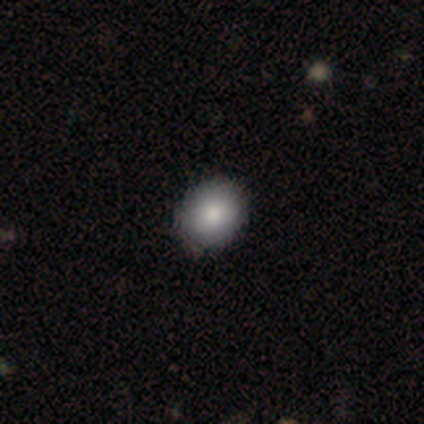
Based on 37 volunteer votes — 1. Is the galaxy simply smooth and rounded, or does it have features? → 84% smooth, 11% featured or disk, 5% star or artifact.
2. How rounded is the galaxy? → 61% round, 35% in between, 3% cigar-shaped.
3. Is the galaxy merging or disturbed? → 86% none, 14% minor disturbance, 0% major disturbance, 0% merger.